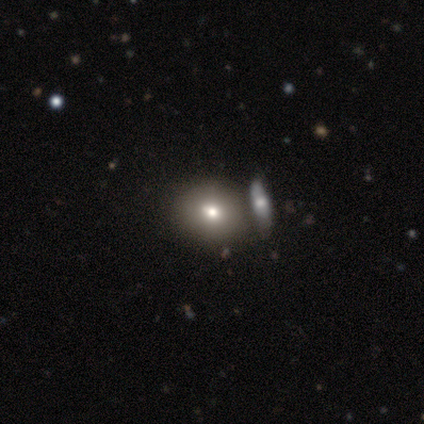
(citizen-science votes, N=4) smooth_or_featured: smooth (p=1.00)
how_rounded: round (p=0.75) [alt: in between p=0.25]
merging: none (p=0.50) [alt: minor disturbance p=0.25]